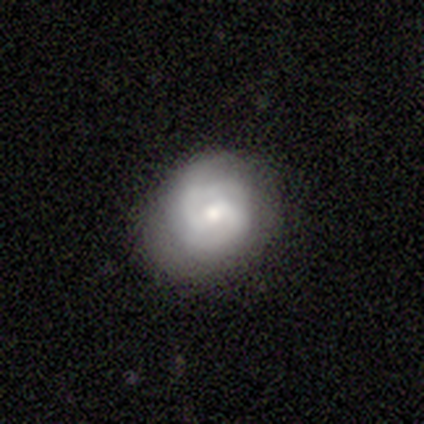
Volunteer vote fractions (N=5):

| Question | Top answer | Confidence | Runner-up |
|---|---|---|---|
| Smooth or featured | featured or disk | 80% | smooth (20%) |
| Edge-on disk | no | 100% | — |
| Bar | weak | 75% | no (25%) |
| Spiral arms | yes | 100% | — |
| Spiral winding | medium | 50% | tight (25%) |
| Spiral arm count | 2 | 100% | — |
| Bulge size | moderate | 50% | large (25%) |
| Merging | none | 80% | minor disturbance (20%) |